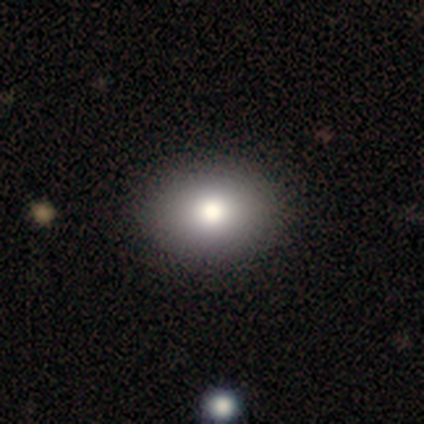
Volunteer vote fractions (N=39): Smooth or featured: smooth — 72% (star or artifact — 18%)
How rounded: in between — 64% (round — 36%)
Merging: none — 91% (minor disturbance — 9%)